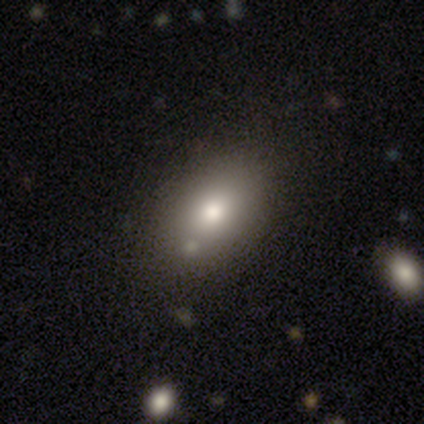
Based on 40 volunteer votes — A smooth galaxy with no disk features (78%) that is in between round and cigar-shaped (77%). Merging: none (68%).